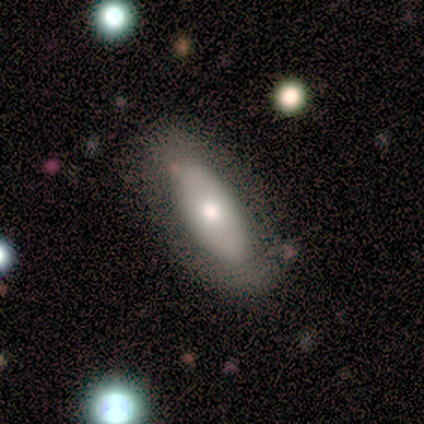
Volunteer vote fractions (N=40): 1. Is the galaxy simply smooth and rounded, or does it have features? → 60% smooth, 38% featured or disk, 2% star or artifact.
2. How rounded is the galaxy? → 71% in between, 29% cigar-shaped, 0% round.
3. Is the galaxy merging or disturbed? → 79% none, 18% minor disturbance, 3% major disturbance, 0% merger.